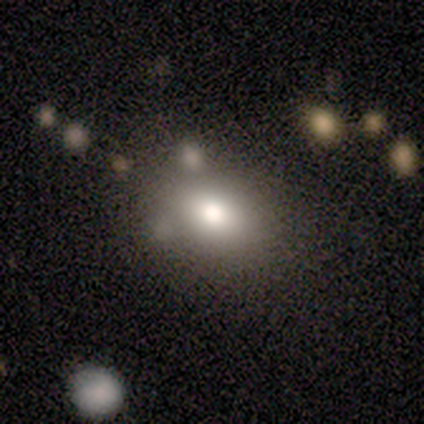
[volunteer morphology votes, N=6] smooth_or_featured: star or artifact (p=0.50) [alt: smooth p=0.33]